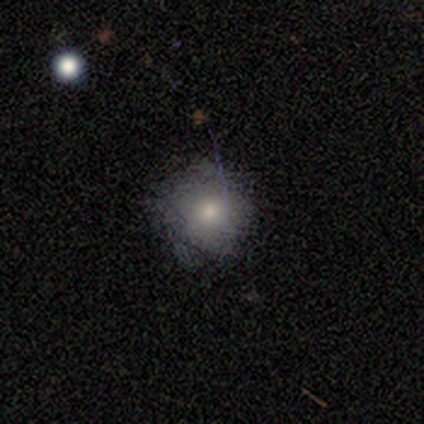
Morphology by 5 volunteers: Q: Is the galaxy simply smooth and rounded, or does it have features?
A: smooth — 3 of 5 (60%).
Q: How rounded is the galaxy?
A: round — 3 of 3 (100%).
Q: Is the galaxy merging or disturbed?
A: none — 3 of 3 (100%).